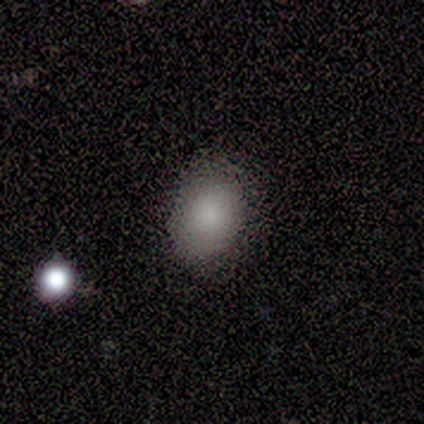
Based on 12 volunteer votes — Volunteers were most divided on "how rounded": in between: 75%, round: 25%, cigar-shaped: 0%. More confident: smooth or featured — smooth (100%); merging — none (75%).